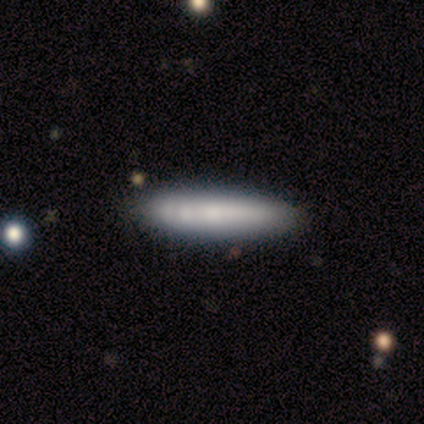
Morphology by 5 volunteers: A smooth galaxy with no disk features (80%) that is cigar-shaped (75%). Merging: none (80%).